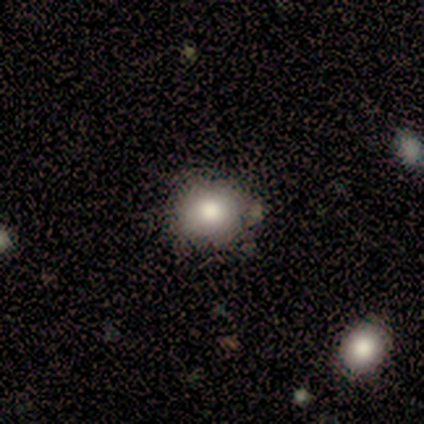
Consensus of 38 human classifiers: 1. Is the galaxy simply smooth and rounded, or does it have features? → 71% smooth, 16% featured or disk, 13% star or artifact.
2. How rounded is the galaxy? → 85% round, 15% in between, 0% cigar-shaped.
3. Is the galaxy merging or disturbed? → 82% none, 12% minor disturbance, 6% merger, 0% major disturbance.